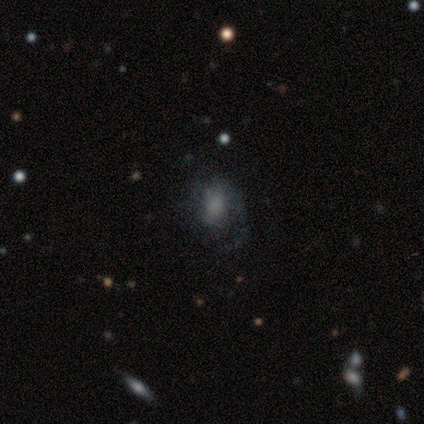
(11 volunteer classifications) This appears to be a smooth galaxy with no disk features (45%) that is in between round and cigar-shaped (100%). Merging: none (75%).